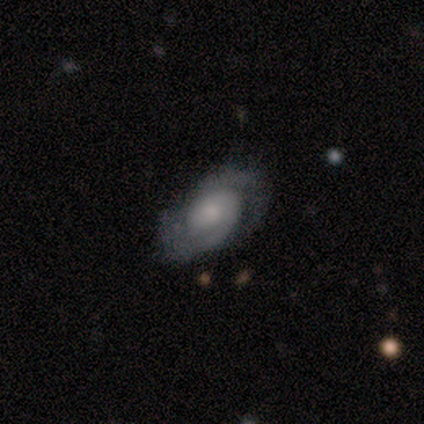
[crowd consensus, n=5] Morphology: type=featured or disk (60%); edge-on=no (100%); bar=no (67%); spiral arms=yes (67%); winding=medium (50%, tied with loose); arm count=2 (100%); bulge=dominant (33%, tied with large and small); merging=none (75%).